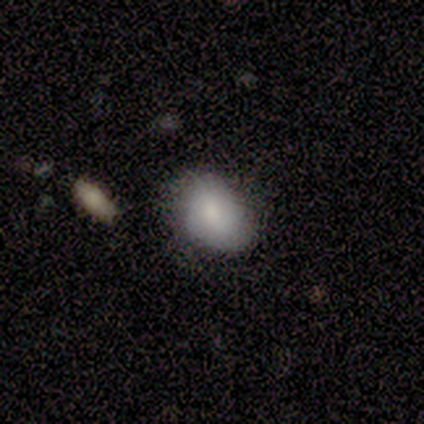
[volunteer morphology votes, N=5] A smooth galaxy with no disk features (60%) that is round (67%).

Vote fractions:
- Smooth or featured? smooth: 60% / featured or disk: 40% / star or artifact: 0%
- How rounded? round: 67% / in between: 33% / cigar-shaped: 0%
- Merging? none: 40% / minor disturbance: 20% / major disturbance: 20% / merger: 20%